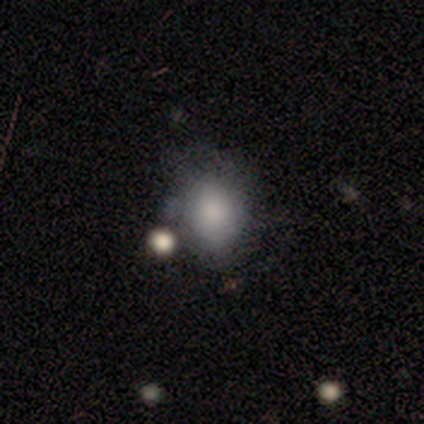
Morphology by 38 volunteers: Overall: smooth (84%). How rounded: in between (59%; round 41%). Merging: none (58%; minor disturbance 31%).